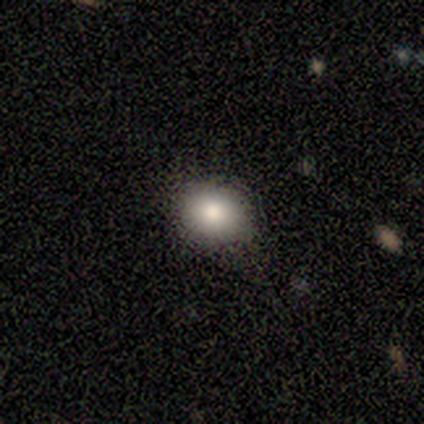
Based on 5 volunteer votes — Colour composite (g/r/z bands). It shows a smooth galaxy with no disk features (80%) that is in between round and cigar-shaped (75%). Merging: none (80%).